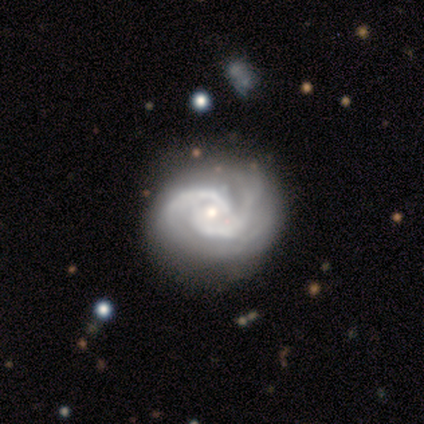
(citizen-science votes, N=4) Volunteers were most divided on "spiral winding": tight: 50%, medium: 25%, loose: 25%. More confident: smooth or featured — featured or disk (100%); edge-on disk — no (100%); spiral arms — yes (100%); spiral arm count — 2 (100%); merging — none (100%); bar — weak (75%); bulge size — moderate (75%).